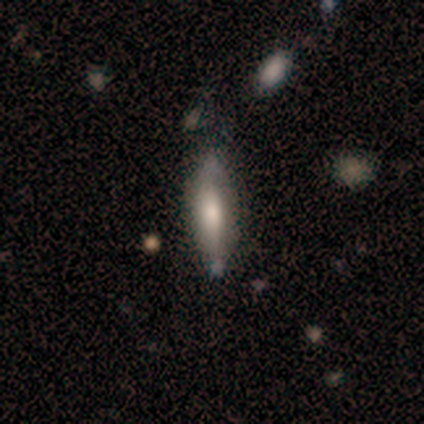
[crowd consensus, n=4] smooth-or-featured: smooth: 50% (tied) | featured or disk: 50% (tied) | star or artifact: 0%
  how-rounded: in between: 50% (tied) | cigar-shaped: 50% (tied) | round: 0%
  merging: none: 75% | minor disturbance: 25% | major disturbance: 0% | merger: 0%